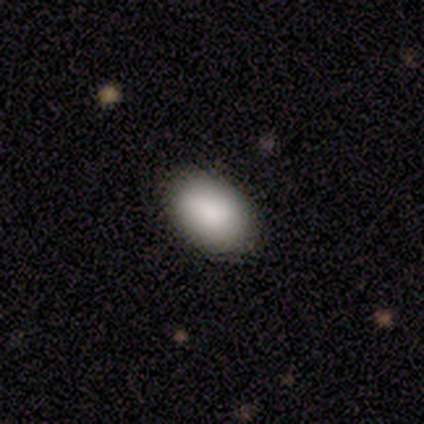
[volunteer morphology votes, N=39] Smooth or featured: smooth — 95% (featured or disk — 5%)
How rounded: in between — 97% (cigar-shaped — 3%)
Merging: none — 62% (merger — 10%)